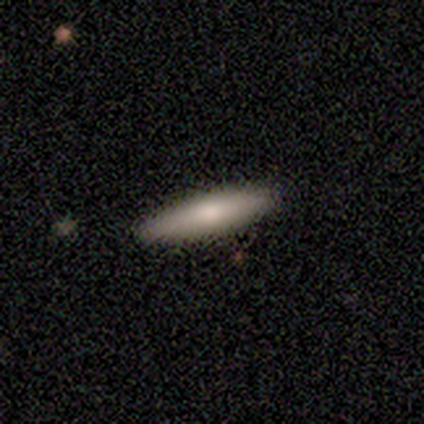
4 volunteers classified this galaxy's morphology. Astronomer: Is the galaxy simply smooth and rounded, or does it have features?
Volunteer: smooth — 75%.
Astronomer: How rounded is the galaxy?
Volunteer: cigar-shaped — 100%.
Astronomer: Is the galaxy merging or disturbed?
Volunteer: none — 100%.